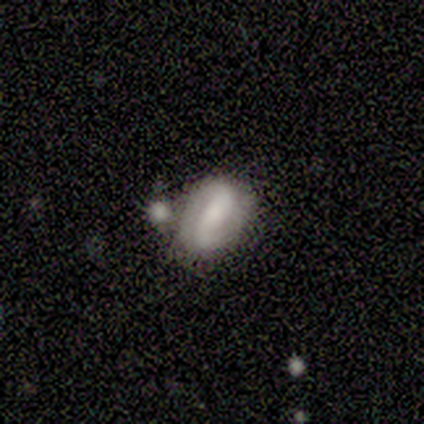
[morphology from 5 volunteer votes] A featured or disk galaxy (60%) with a weak bar (67%), 2 (100%) loose (67%) spiral arms (100%) and a moderate central bulge (33%, tied with small and none).

Vote fractions:
- Smooth or featured? featured or disk: 60% / smooth: 40% / star or artifact: 0%
- Edge-on disk? no: 100% / yes: 0%
- Bar? weak: 67% / no: 33% / strong: 0%
- Spiral arms? yes: 100% / no: 0%
- Spiral winding? loose: 67% / tight: 33% / medium: 0%
- Spiral arm count? 2: 100% / 1: 0% / 3: 0% / 4: 0% / more than 4: 0% / can't tell: 0%
- Bulge size? moderate: 33% (tied) / small: 33% (tied) / none: 33% (tied) / dominant: 0% / large: 0%
- Merging? none: 40% (tied) / merger: 40% (tied) / minor disturbance: 20% / major disturbance: 0%